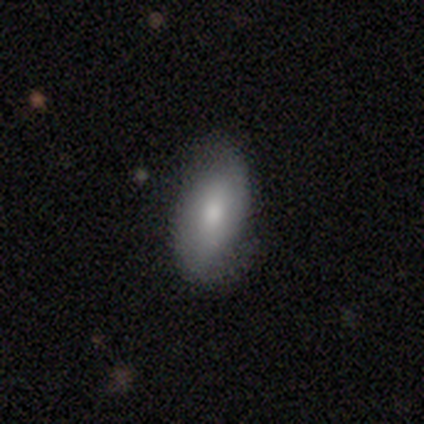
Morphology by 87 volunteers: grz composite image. It shows a smooth galaxy with no disk features (60%) that is in between round and cigar-shaped (90%). Merging: none (75%).